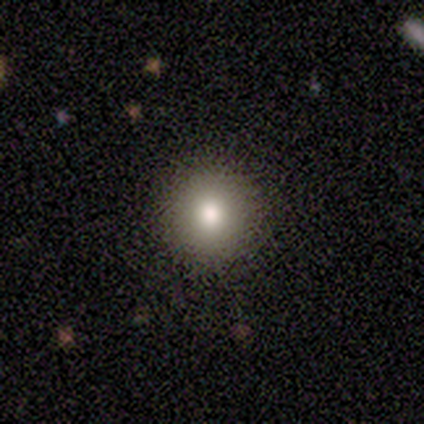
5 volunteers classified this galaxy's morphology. A smooth galaxy with no disk features (100%) that is round (100%). Merging: none (100%).